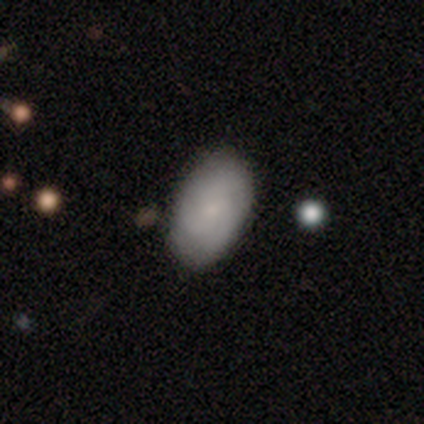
smooth 57%, featured or disk 42%, star or artifact 0%. Down the decision tree: how rounded — in between (91%); merging — none (78%).